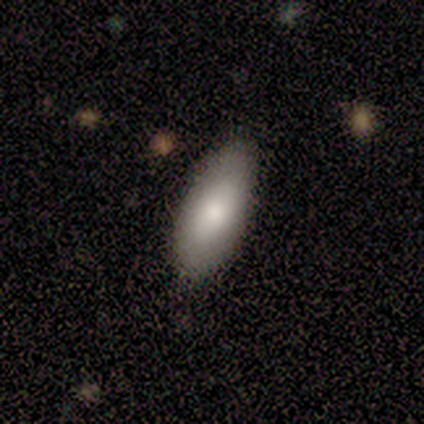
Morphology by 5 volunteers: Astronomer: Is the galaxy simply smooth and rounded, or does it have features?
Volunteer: smooth — 80%.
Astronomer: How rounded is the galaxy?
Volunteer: in between — 75%.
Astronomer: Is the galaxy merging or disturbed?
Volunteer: none — 100%.